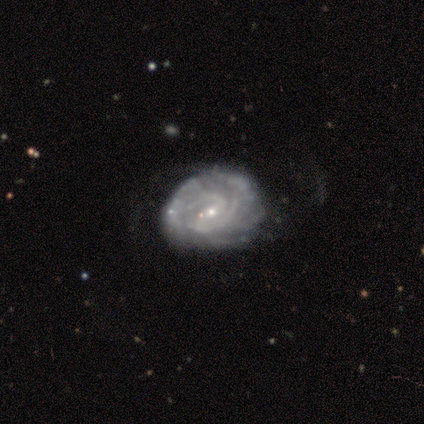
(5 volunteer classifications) Smooth or featured? featured or disk (80%)
Edge-on disk? no (100%)
Bar? weak (50%, tied with no)
Spiral arms? yes (100%)
Spiral winding? tight (100%)
Spiral arm count? can't tell (75%)
Bulge size? small (75%)
Merging? none (75%)